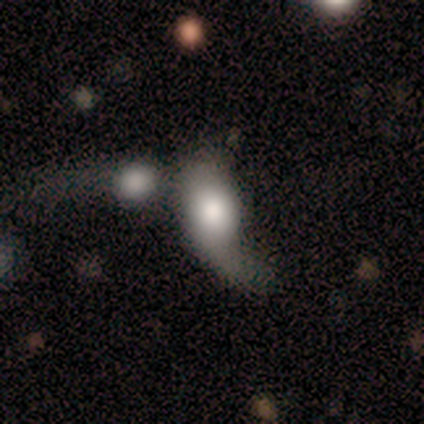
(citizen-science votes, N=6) This appears to be a smooth galaxy with no disk features (50%, tied with featured or disk) that is in between round and cigar-shaped (100%). Merging: merger (50%).